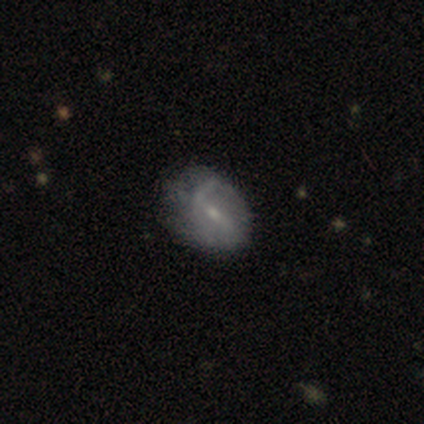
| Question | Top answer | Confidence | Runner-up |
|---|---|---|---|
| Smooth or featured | featured or disk | 60% | smooth (20%) |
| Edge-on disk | no | 100% | — |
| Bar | strong | 33% | tied: weak (33%), no (33%) |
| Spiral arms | yes | 67% | no (33%) |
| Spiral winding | medium | 50% | tied: loose (50%) |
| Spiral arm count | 2 | 100% | — |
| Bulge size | small | 67% | moderate (33%) |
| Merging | none | 50% | tied: minor disturbance (50%) |